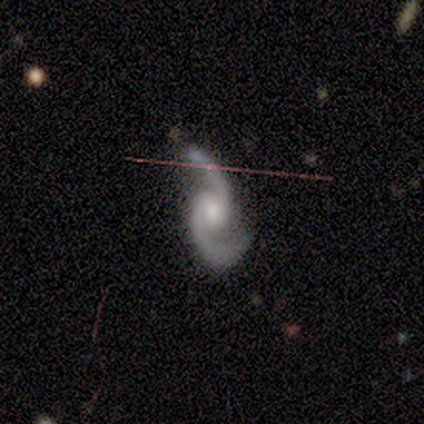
A featured or disk galaxy (100%) with no bar (80%), 2 (100%) medium (40%, tied with loose) spiral arms (100%) and a moderate central bulge (40%, tied with small).

Vote fractions:
- Smooth or featured? featured or disk: 100% / smooth: 0% / star or artifact: 0%
- Edge-on disk? no: 100% / yes: 0%
- Bar? no: 80% / weak: 20% / strong: 0%
- Spiral arms? yes: 100% / no: 0%
- Spiral winding? medium: 40% (tied) / loose: 40% (tied) / tight: 20%
- Spiral arm count? 2: 100% / 1: 0% / 3: 0% / 4: 0% / more than 4: 0% / can't tell: 0%
- Bulge size? moderate: 40% (tied) / small: 40% (tied) / none: 20% / dominant: 0% / large: 0%
- Merging? none: 60% / minor disturbance: 20% / major disturbance: 20% / merger: 0%